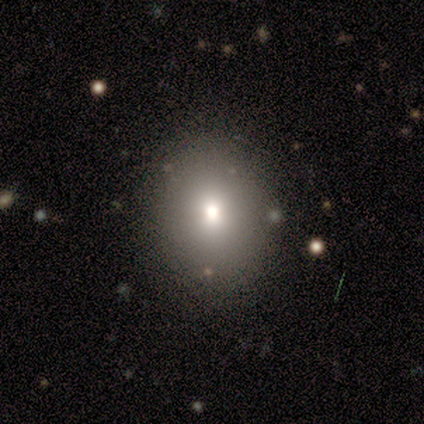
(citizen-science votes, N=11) Smooth or featured? 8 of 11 (73%) said smooth. How rounded? 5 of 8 (62%) said round. Merging? 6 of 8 (75%) said none.